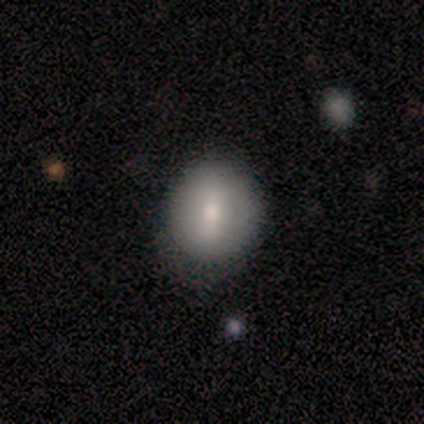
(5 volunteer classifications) Smooth or featured: smooth — 60% (featured or disk — 40%)
How rounded: in between — 67% (round — 33%)
Merging: minor disturbance — 60% (none — 40%)